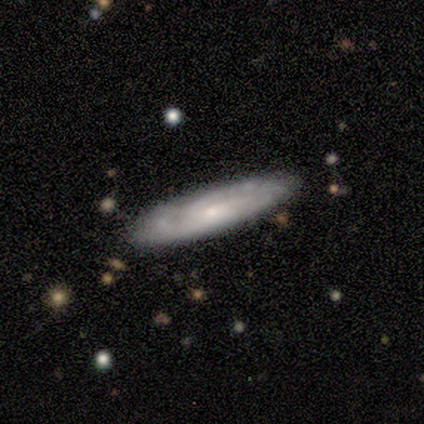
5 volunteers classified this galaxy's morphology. smooth-or-featured: featured or disk: 80% | smooth: 20% | star or artifact: 0%
  disk-edge-on: no: 75% | yes: 25%
    bar: no: 67% | weak: 33% | strong: 0%
    has-spiral-arms: yes: 100% | no: 0%
      spiral-winding: loose: 67% | tight: 33% | medium: 0%
      spiral-arm-count: can't tell: 67% | 3: 33% | 1: 0% | 2: 0% | 4: 0% | more than 4: 0%
    bulge-size: small: 100% | dominant: 0% | large: 0% | moderate: 0% | none: 0%
  merging: none: 80% | minor disturbance: 20% | major disturbance: 0% | merger: 0%